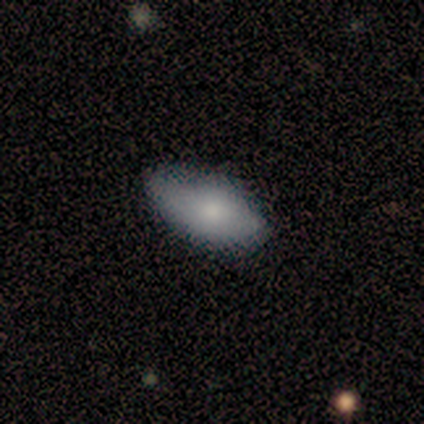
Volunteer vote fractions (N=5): Smooth or featured: smooth — 80% (featured or disk — 20%)
How rounded: in between — 100%
Merging: minor disturbance — 60% (none — 40%)